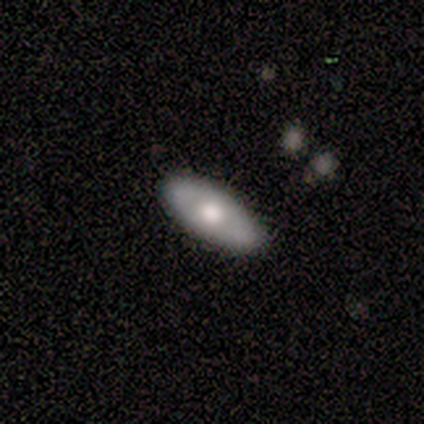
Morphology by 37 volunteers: smooth_or_featured: smooth (p=0.49) [alt: featured or disk p=0.46]
how_rounded: in between (p=0.89) [alt: cigar-shaped p=0.11]
merging: none (p=0.86) [alt: minor disturbance p=0.11]